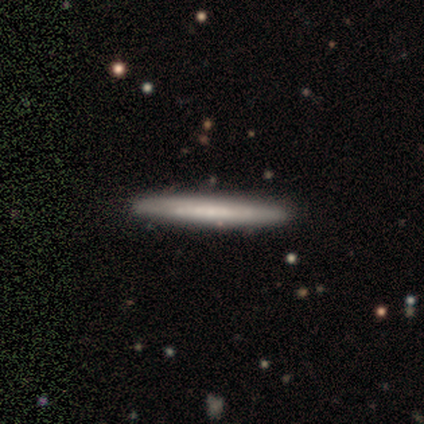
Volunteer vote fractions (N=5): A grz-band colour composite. It shows a smooth galaxy with no disk features (40%, tied with star or artifact) that is cigar-shaped (100%). Merging: none (100%).